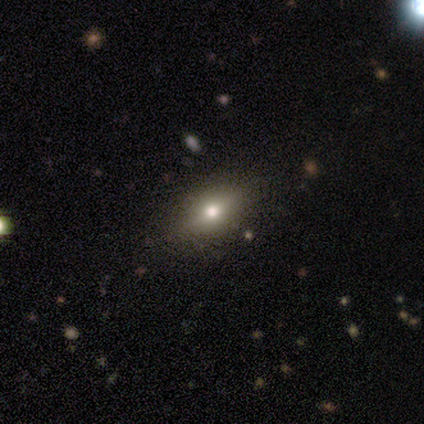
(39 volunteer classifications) A smooth galaxy with no disk features (64%) that is in between round and cigar-shaped (76%). Merging: none (91%).